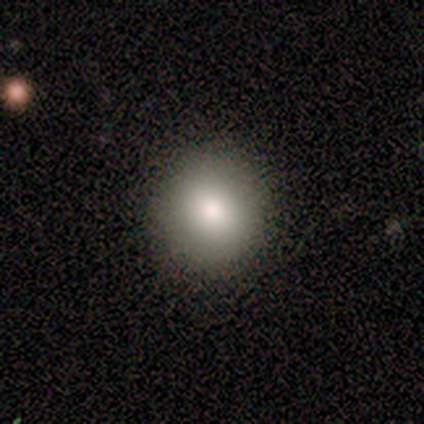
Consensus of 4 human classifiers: Morphology: type=smooth (100%); roundness=round (75%); merging=none (100%).